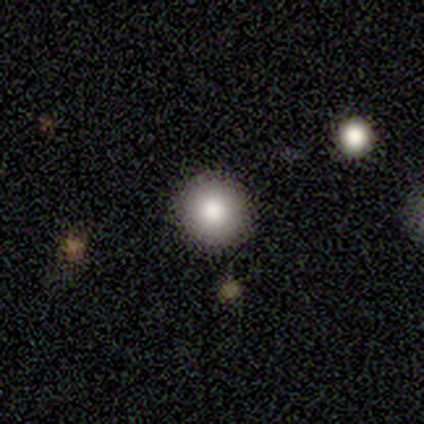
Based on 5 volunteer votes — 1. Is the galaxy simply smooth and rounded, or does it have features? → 100% smooth, 0% featured or disk, 0% star or artifact.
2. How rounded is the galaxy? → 100% round, 0% in between, 0% cigar-shaped.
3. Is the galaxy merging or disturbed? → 100% none, 0% minor disturbance, 0% major disturbance, 0% merger.